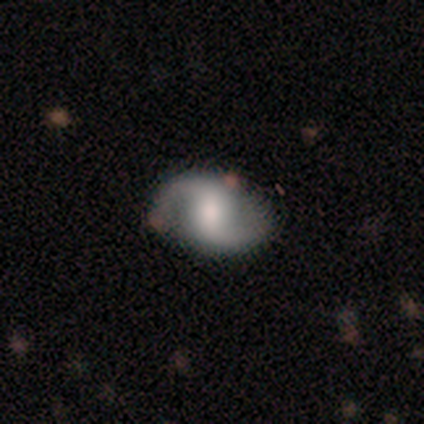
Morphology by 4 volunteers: This is likely a featured or disk galaxy (75%). It is clearly not viewed edge-on (100%). Bar: likely no (67%). Spiral arm pattern: clearly yes (100%). Spiral arm count: clearly 2 (100%). Spiral winding: clearly medium (100%). Central bulge: likely large (67%). Merging: likely none (75%).